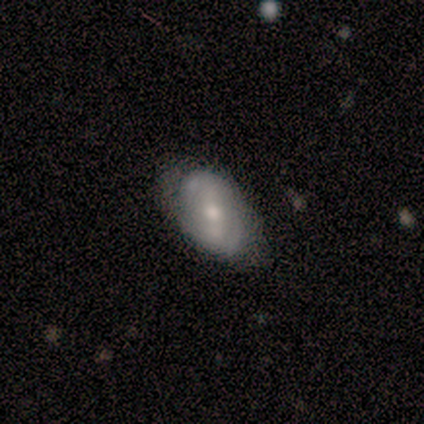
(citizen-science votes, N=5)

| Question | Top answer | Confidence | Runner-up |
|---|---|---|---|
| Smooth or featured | smooth | 60% | featured or disk (40%) |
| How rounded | in between | 100% | — |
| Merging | none | 60% | minor disturbance (20%) |